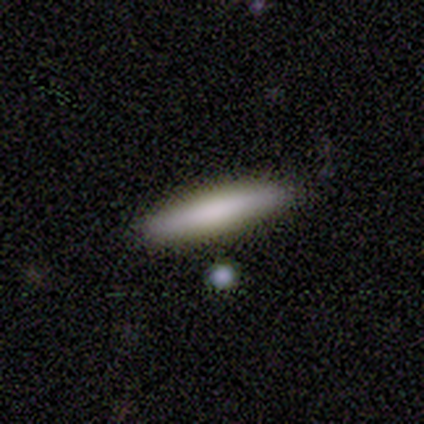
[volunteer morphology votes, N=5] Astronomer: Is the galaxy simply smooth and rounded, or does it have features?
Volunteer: smooth — 80%.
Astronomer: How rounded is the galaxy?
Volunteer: cigar-shaped — 75%.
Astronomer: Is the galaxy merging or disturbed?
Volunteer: none — 100%.